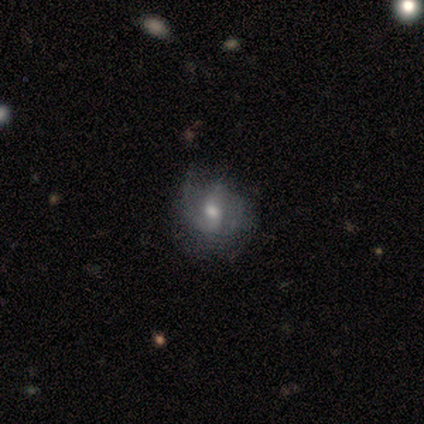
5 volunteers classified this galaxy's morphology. Smooth or featured? star or artifact (80%)